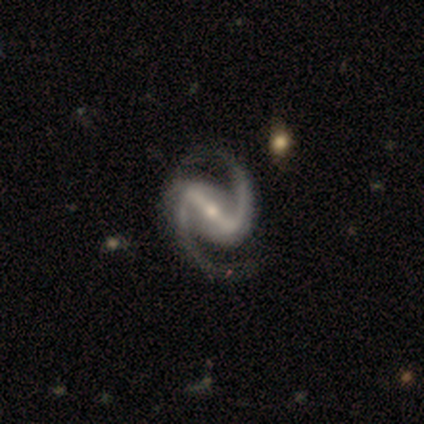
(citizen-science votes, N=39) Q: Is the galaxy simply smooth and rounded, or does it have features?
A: featured or disk — 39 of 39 (100%).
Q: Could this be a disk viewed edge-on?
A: no — 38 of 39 (97%).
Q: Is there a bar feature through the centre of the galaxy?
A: strong — 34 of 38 (89%).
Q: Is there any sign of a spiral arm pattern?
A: yes — 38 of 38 (100%).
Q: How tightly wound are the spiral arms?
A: medium — 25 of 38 (66%).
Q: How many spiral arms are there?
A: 2 — 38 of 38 (100%).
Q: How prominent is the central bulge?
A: small — 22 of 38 (58%).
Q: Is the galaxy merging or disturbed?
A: none — 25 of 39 (64%).